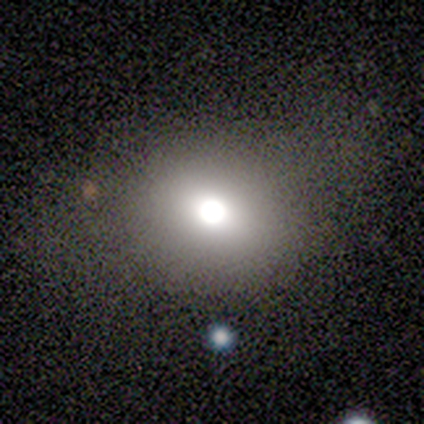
Q: Smooth or featured?
A: smooth (100%)
Q: How rounded?
A: round (67%); runner-up: in between (33%)
Q: Merging?
A: none (100%)